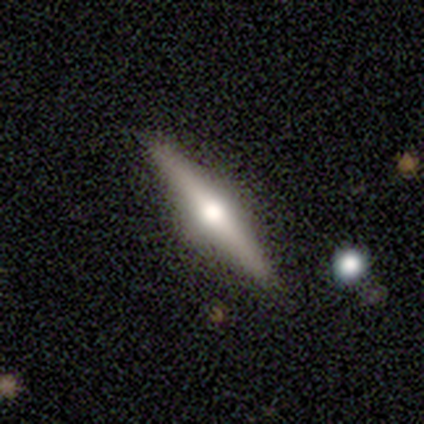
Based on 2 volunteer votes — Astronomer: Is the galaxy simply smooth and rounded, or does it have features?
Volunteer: featured or disk — 100%.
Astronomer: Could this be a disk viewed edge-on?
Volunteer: yes — 100%.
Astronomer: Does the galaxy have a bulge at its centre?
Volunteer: rounded — 100%.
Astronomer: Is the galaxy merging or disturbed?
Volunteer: none — 50%, tied with minor disturbance at 50%.